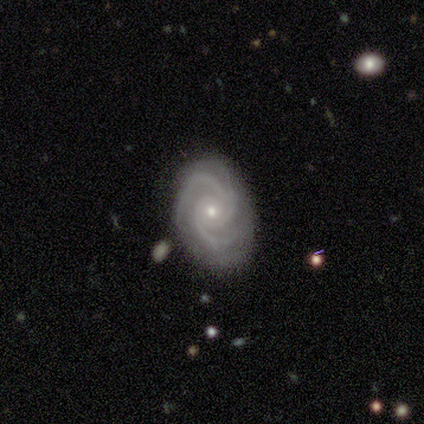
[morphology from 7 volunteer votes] This appears to be a featured or disk galaxy (100%) with no bar (71%), 2 (57%) tight (86%) spiral arms (100%) and a small central bulge (71%). Merging: none (100%).